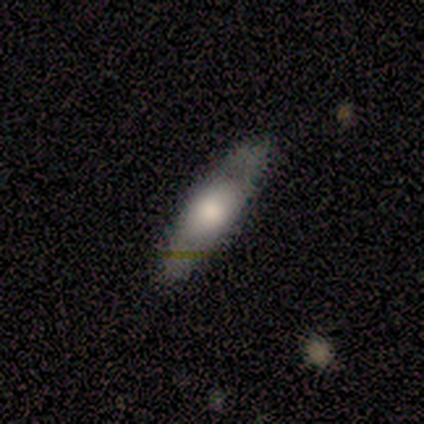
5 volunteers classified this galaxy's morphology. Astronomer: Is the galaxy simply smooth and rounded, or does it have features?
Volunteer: smooth — 60% (runner-up: featured or disk, 40%).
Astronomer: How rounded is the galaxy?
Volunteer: cigar-shaped — 100%.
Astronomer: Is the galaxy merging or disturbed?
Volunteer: none — 80%.